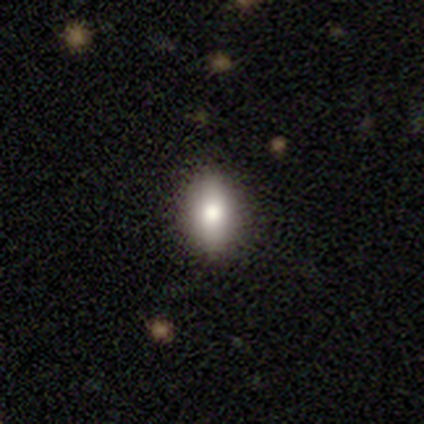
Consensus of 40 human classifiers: Smooth or featured: smooth — 75% (featured or disk — 18%)
How rounded: in between — 80% (cigar-shaped — 13%)
Merging: none — 95% (minor disturbance — 3%)